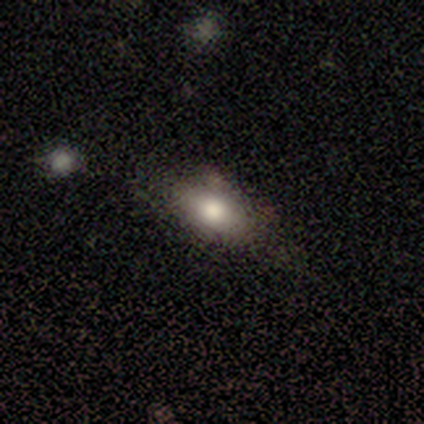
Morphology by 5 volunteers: Smooth or featured? smooth (100%)
How rounded? in between (60%)
Merging? none (60%)